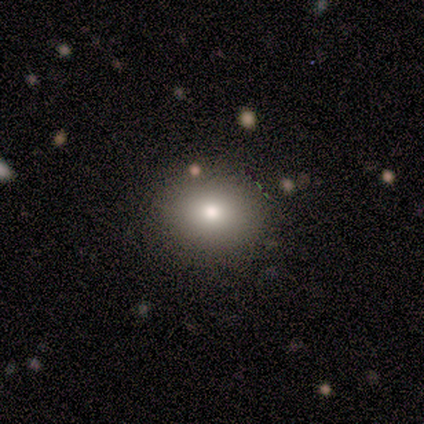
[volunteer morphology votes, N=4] smooth_or_featured: smooth (p=1.00)
how_rounded: round (p=0.50) [tied with: in between p=0.50]
merging: none (p=1.00)